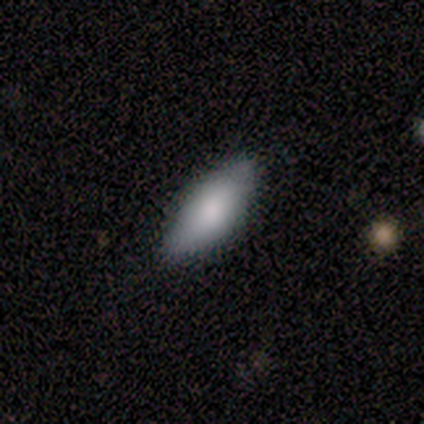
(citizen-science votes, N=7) A smooth galaxy with no disk features (100%) that is in between round and cigar-shaped (86%). Merging: none (100%).